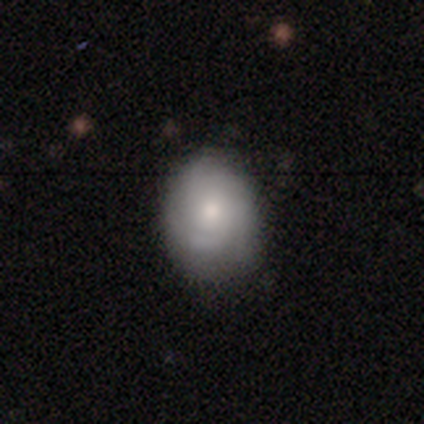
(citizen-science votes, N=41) A smooth galaxy with no disk features (51%) that is in between round and cigar-shaped (62%).

Vote fractions:
- Smooth or featured? smooth: 51% / featured or disk: 34% / star or artifact: 15%
- How rounded? in between: 62% / round: 38% / cigar-shaped: 0%
- Merging? none: 80% / minor disturbance: 17% / major disturbance: 3% / merger: 0%